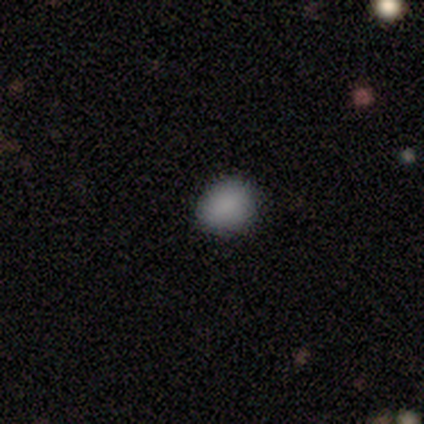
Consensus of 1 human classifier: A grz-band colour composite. It shows a smooth galaxy with no disk features (100%) that is round (100%). Merging: none (100%).